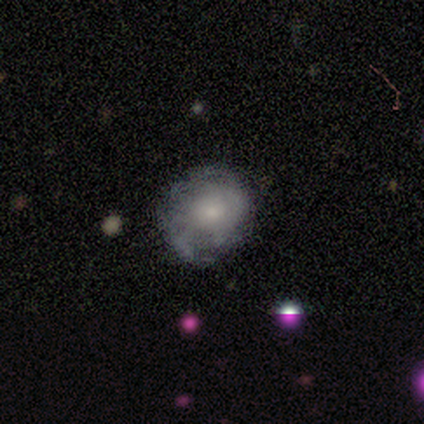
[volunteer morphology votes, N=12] This appears to be a featured or disk galaxy (67%) with no bar (100%), tight (60%) spiral arms (62%) and a moderate central bulge (50%). Merging: none (64%).